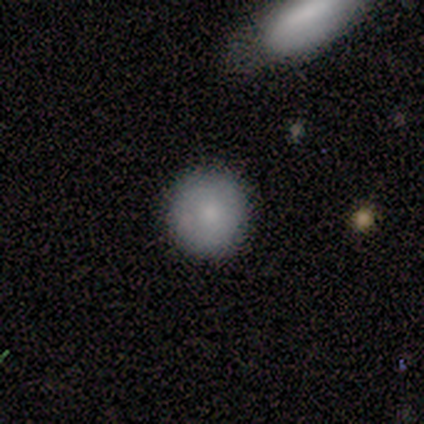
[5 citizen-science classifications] This appears to be a smooth galaxy with no disk features (80%) that is round (100%). Merging: none (100%).